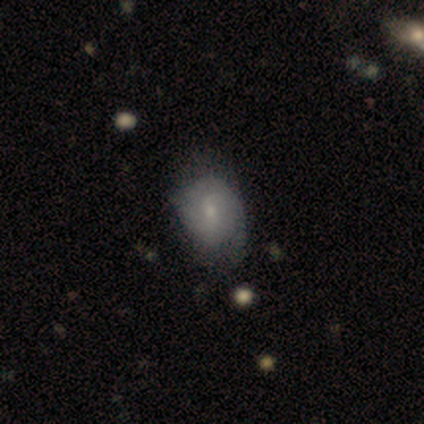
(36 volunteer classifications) Morphology: type=featured or disk (47%); edge-on=no (76%); bar=weak (69%); spiral arms=yes (92%); winding=tight (42%, tied with medium); arm count=2 (42%, tied with can't tell); bulge=small (69%); merging=none (55%).